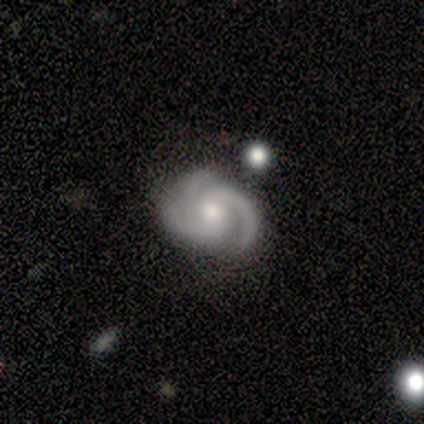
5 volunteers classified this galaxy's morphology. Smooth or featured?
  - featured or disk: 100% *
  - smooth: 0%
  - star or artifact: 0%
Edge-on disk?
  - no: 100% *
  - yes: 0%
Bar?
  - no: 80% *
  - strong: 20%
  - weak: 0%
Spiral arms?
  - yes: 100% *
  - no: 0%
Spiral winding?
  - medium: 60% *
  - tight: 20%
  - loose: 20%
Spiral arm count?
  - 3: 80% *
  - 2: 20%
  - 1: 0%
  - 4: 0%
  - more than 4: 0%
  - can't tell: 0%
Bulge size?
  - moderate: 80% *
  - small: 20%
  - dominant: 0%
  - large: 0%
  - none: 0%
Merging?
  - none: 40% * (tied)
  - minor disturbance: 40% * (tied)
  - merger: 20%
  - major disturbance: 0%